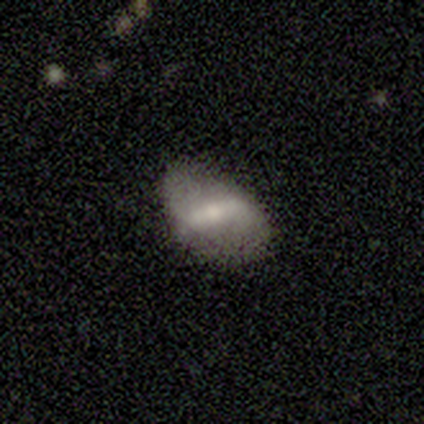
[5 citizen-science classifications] Morphology: type=featured or disk (80%); edge-on=no (100%); bar=strong (50%, tied with weak); spiral arms=yes (75%); winding=loose (100%); arm count=2 (100%); bulge=moderate (75%); merging=none (80%).